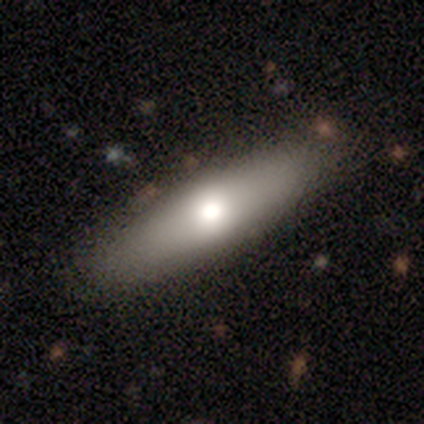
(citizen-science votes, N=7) A smooth galaxy with no disk features (57%) that is in between round and cigar-shaped (50%, tied with cigar-shaped).

Vote fractions:
- Smooth or featured? smooth: 57% / featured or disk: 43% / star or artifact: 0%
- How rounded? in between: 50% (tied) / cigar-shaped: 50% (tied) / round: 0%
- Merging? none: 86% / minor disturbance: 14% / major disturbance: 0% / merger: 0%